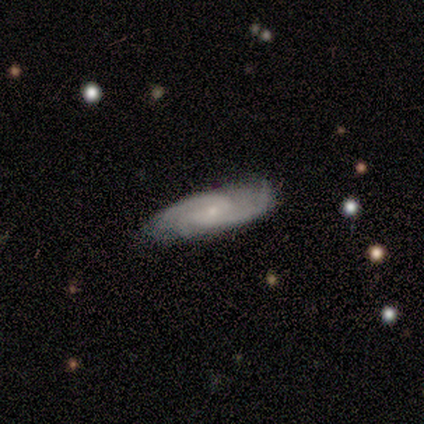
Morphology: type=featured or disk (80%); edge-on=no (100%); bar=weak (50%, tied with no); spiral arms=yes (100%); winding=tight (50%, tied with medium); arm count=3 (50%); bulge=small (100%); merging=none (60%).